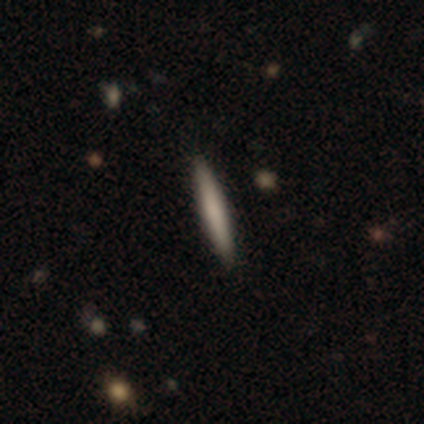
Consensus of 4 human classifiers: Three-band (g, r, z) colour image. It shows a smooth galaxy with no disk features (75%) that is cigar-shaped (100%). Merging: none (100%).